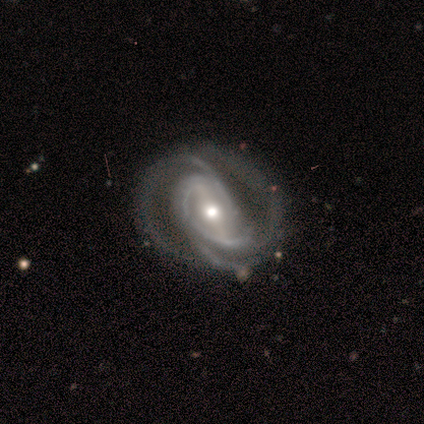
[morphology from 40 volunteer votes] A featured or disk galaxy (92%) with a strong bar (68%), 3 (57%) medium (54%) spiral arms (100%) and a moderate central bulge (68%). Merging: none (31%).